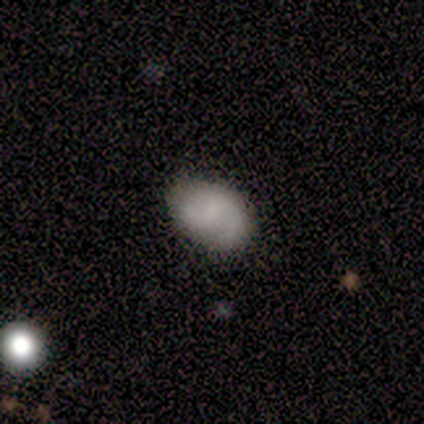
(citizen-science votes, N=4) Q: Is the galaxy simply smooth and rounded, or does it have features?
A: smooth — 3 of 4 (75%).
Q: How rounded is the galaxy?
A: in between — 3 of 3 (100%).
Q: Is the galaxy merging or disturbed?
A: none — 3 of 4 (75%).